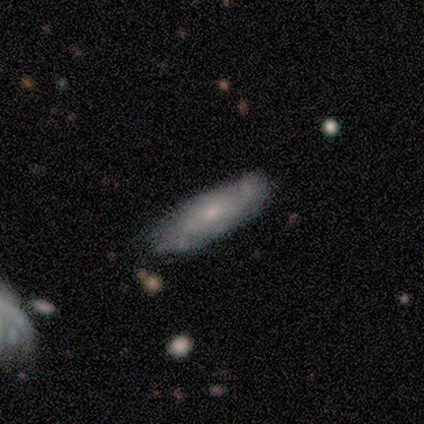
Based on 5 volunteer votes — Smooth or featured? smooth (60%)
How rounded? cigar-shaped (100%)
Merging? none (60%)